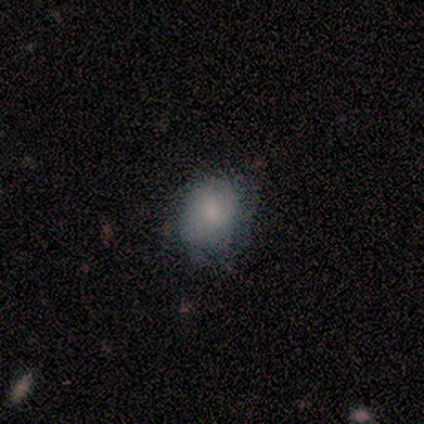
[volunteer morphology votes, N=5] smooth 100%, featured or disk 0%, star or artifact 0%. Down the decision tree: how rounded — round (60%); merging — none (80%).